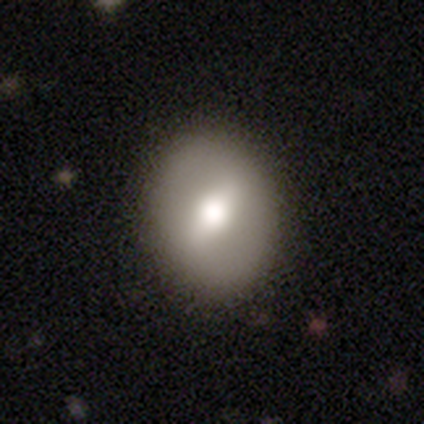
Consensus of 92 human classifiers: Smooth or featured?
  - smooth: 54% *
  - featured or disk: 41%
  - star or artifact: 4%
How rounded?
  - in between: 64% *
  - round: 36%
  - cigar-shaped: 0%
Merging?
  - none: 85% *
  - minor disturbance: 9%
  - major disturbance: 6%
  - merger: 0%